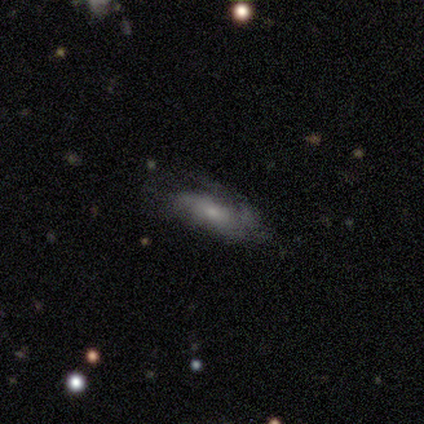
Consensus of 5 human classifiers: smooth 60%, featured or disk 40%, star or artifact 0%. Down the decision tree: how rounded — in between (100%); merging — none (60%).